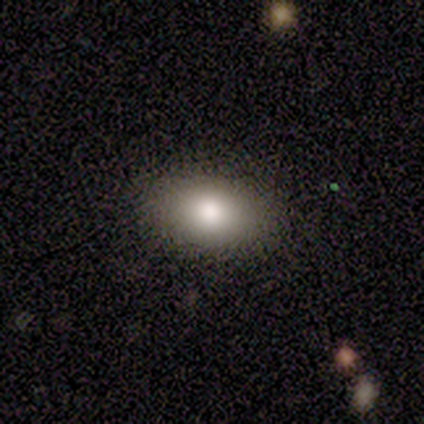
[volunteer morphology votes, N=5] A smooth galaxy with no disk features (60%) that is in between round and cigar-shaped (100%).

Vote fractions:
- Smooth or featured? smooth: 60% / featured or disk: 20% / star or artifact: 20%
- How rounded? in between: 100% / round: 0% / cigar-shaped: 0%
- Merging? none: 100% / minor disturbance: 0% / major disturbance: 0% / merger: 0%